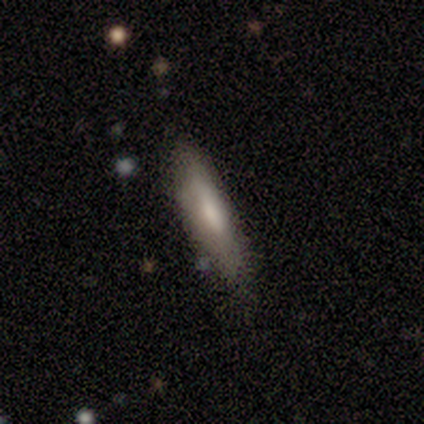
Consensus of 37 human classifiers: Q: Smooth or featured?
A: smooth (65%); runner-up: featured or disk (30%)
Q: How rounded?
A: cigar-shaped (79%); runner-up: in between (21%)
Q: Merging?
A: none (80%); runner-up: minor disturbance (14%)